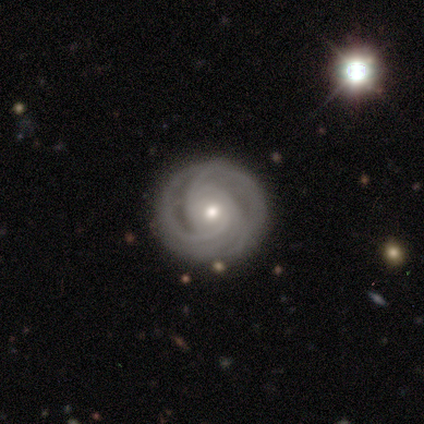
Smooth or featured? 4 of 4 (100%) said featured or disk. Edge-on disk? 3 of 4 (75%) said no. Bar? 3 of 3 (100%) said no. Spiral arms? 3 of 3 (100%) said yes. Spiral winding? 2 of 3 (67%) said tight. Spiral arm count? 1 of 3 (33%, tied with 3 and can't tell) said 2. Bulge size? 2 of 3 (67%) said small. Merging? 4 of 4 (100%) said none.